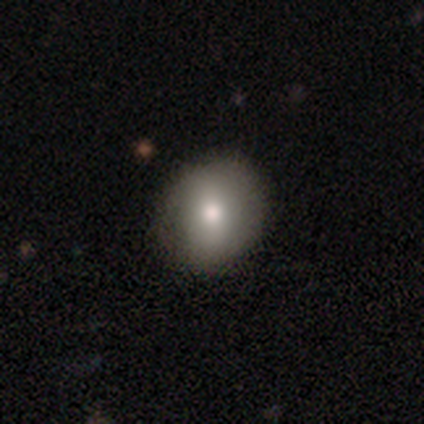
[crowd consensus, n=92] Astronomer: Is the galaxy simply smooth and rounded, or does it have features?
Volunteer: smooth — 80%.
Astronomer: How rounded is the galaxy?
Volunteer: round — 70%.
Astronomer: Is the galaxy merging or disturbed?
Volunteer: none — 78%.